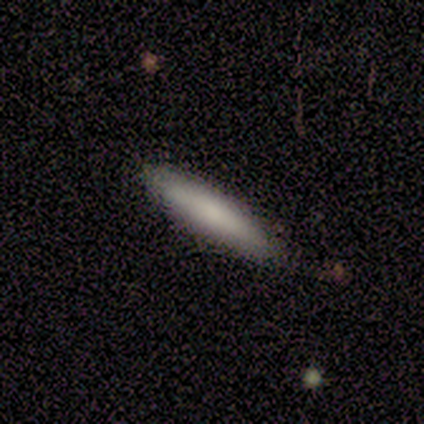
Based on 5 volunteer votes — A smooth galaxy with no disk features (80%) that is cigar-shaped (100%). Merging: none (100%).